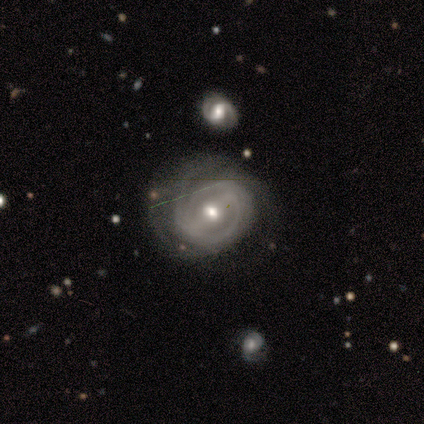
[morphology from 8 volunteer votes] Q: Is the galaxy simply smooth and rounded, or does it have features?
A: featured or disk — 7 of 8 (88%).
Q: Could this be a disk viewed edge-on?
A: no — 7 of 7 (100%).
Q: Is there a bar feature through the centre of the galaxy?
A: strong — 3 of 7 (43%, tied with no).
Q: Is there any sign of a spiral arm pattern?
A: yes — 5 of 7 (71%).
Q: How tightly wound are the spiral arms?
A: medium — 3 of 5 (60%).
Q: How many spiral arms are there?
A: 3 — 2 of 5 (40%, tied with can't tell).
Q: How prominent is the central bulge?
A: small — 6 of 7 (86%).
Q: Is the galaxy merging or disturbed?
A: none — 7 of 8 (88%).